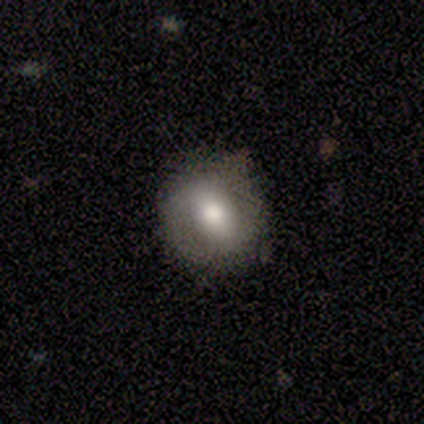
Morphology: type=smooth (62%); roundness=round (64%); merging=none (81%).